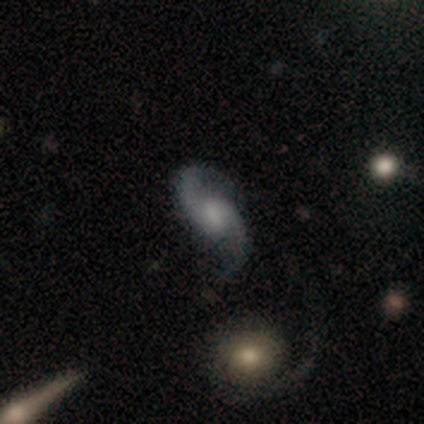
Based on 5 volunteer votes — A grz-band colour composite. It shows a featured or disk galaxy (100%) with no bar (60%), 2 (100%) loose (100%) spiral arms (100%) and a moderate central bulge (40%). Merging: none (100%).